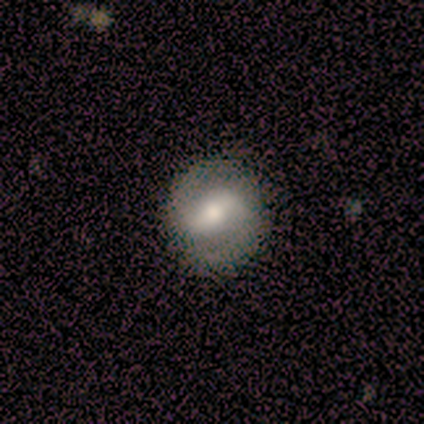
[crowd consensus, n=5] Q: Smooth or featured?
A: featured or disk (80%); runner-up: smooth (20%)
Q: Edge-on disk?
A: no (100%)
Q: Bar?
A: weak (75%); runner-up: strong (25%)
Q: Spiral arms?
A: yes (75%); runner-up: no (25%)
Q: Spiral winding?
A: medium (67%); runner-up: tight (33%)
Q: Spiral arm count?
A: 2 (100%)
Q: Bulge size?
A: moderate (50%); runner-up: large (25%)
Q: Merging?
A: none (100%)